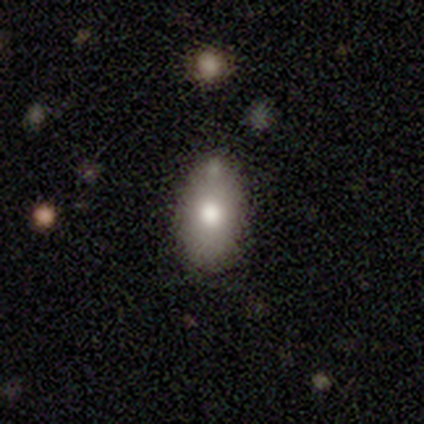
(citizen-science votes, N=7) Morphology: type=smooth (86%); roundness=in between (100%); merging=none (71%).